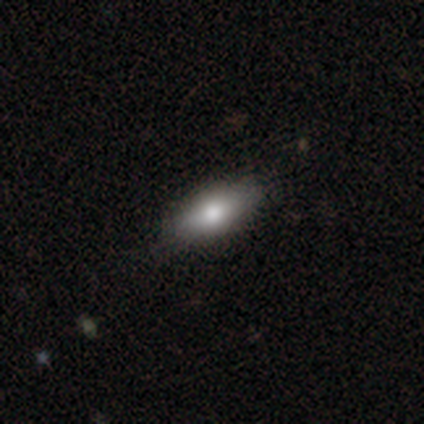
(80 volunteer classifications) smooth_or_featured: smooth (p=0.84) [alt: star or artifact p=0.10]
how_rounded: in between (p=0.82) [alt: cigar-shaped p=0.16]
merging: none (p=0.40) [alt: minor disturbance p=0.08]